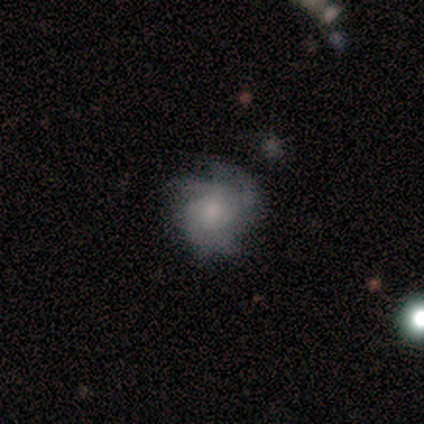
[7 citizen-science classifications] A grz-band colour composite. It shows a featured or disk galaxy (86%) with no bar (83%), tight (80%) spiral arms (83%) and a small central bulge (67%). Merging: minor disturbance (57%).